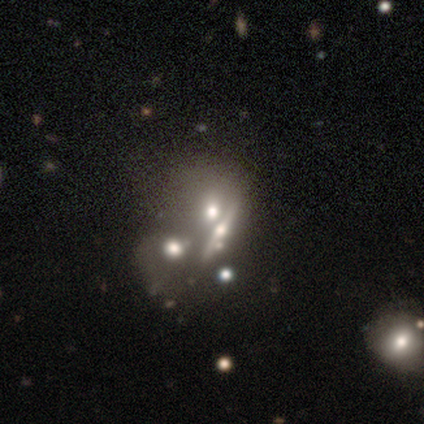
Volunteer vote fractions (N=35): Volunteers were most divided on "smooth or featured": featured or disk: 57%, smooth: 37%, star or artifact: 6%. More confident: spiral arms — no (100%); bar — no (92%); bulge size — moderate (69%); edge-on disk — no (65%); merging — merger (64%).